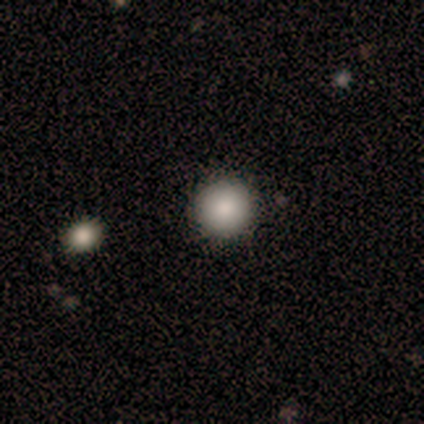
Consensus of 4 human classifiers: A smooth galaxy with no disk features (100%) that is round (100%).

Vote fractions:
- Smooth or featured? smooth: 100% / featured or disk: 0% / star or artifact: 0%
- How rounded? round: 100% / in between: 0% / cigar-shaped: 0%
- Merging? none: 100% / minor disturbance: 0% / major disturbance: 0% / merger: 0%